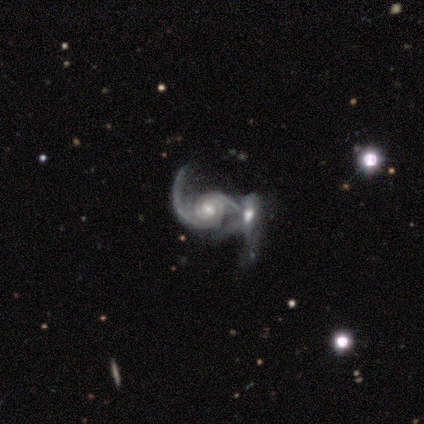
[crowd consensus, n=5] Q: Smooth or featured?
A: featured or disk (100%)
Q: Edge-on disk?
A: no (100%)
Q: Bar?
A: weak (40%); tied with: no (40%)
Q: Spiral arms?
A: yes (100%)
Q: Spiral winding?
A: medium (60%); runner-up: tight (40%)
Q: Spiral arm count?
A: 2 (100%)
Q: Bulge size?
A: moderate (60%); runner-up: small (40%)
Q: Merging?
A: major disturbance (40%); runner-up: none (20%)